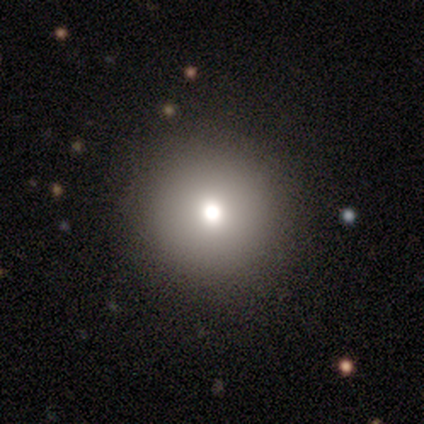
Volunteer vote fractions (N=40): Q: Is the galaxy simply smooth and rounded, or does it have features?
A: smooth — 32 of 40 (80%).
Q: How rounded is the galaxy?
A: round — 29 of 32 (91%).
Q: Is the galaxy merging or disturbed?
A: none — 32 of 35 (91%).